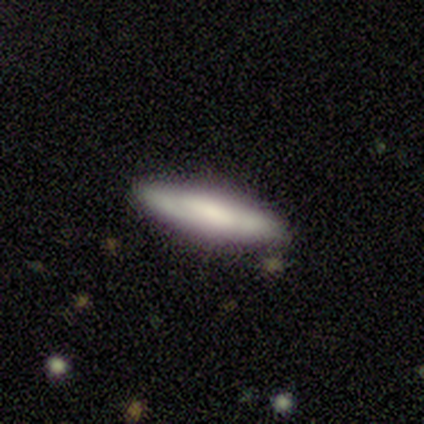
A smooth galaxy with no disk features (100%) that is cigar-shaped (100%).

Vote fractions:
- Smooth or featured? smooth: 100% / featured or disk: 0% / star or artifact: 0%
- How rounded? cigar-shaped: 100% / round: 0% / in between: 0%
- Merging? none: 100% / minor disturbance: 0% / major disturbance: 0% / merger: 0%